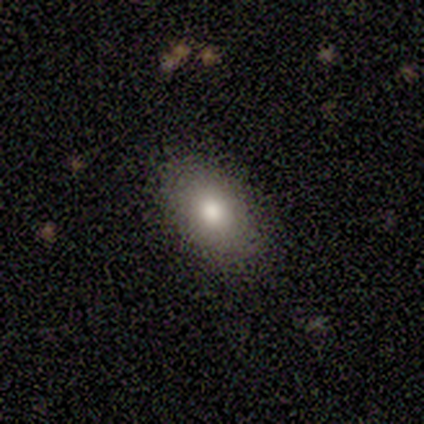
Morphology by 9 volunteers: Smooth or featured? smooth (89%)
How rounded? in between (75%)
Merging? none (88%)